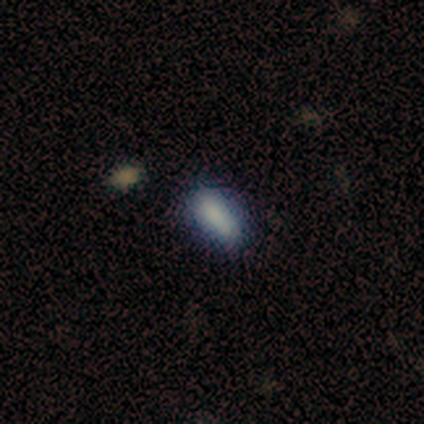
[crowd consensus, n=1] smooth 100%, featured or disk 0%, star or artifact 0%. Down the decision tree: how rounded — in between (100%); merging — none (100%).